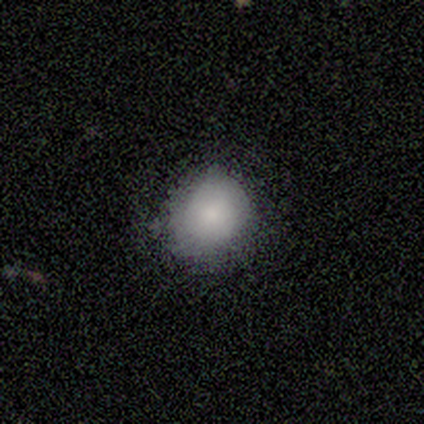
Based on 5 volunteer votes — A smooth galaxy with no disk features (60%) that is round (100%). Merging: none (67%).